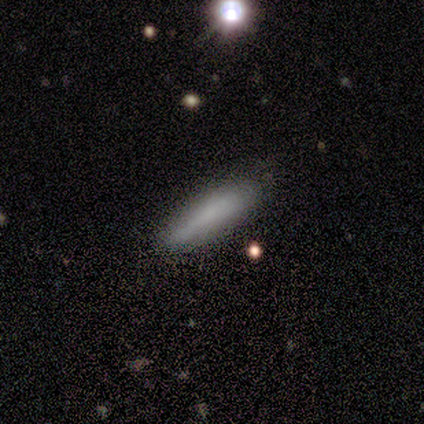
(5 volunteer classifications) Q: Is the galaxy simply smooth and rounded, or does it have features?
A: smooth — 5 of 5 (100%).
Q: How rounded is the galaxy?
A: cigar-shaped — 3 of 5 (60%).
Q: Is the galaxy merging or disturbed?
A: none — 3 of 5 (60%).